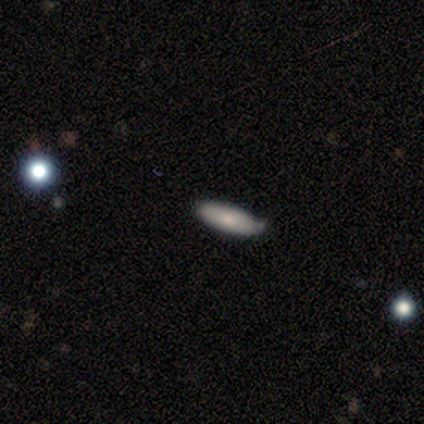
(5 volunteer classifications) This appears to be a smooth galaxy with no disk features (100%) that is in between round and cigar-shaped (100%). Merging: none (80%).